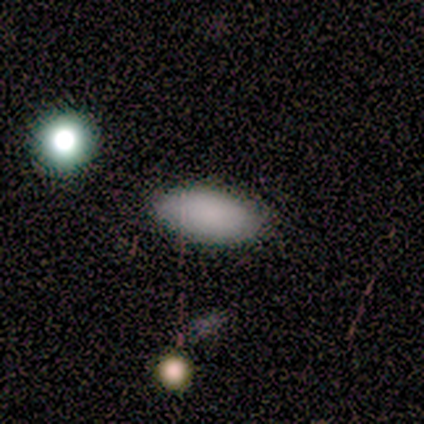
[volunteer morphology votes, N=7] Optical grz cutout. It shows a smooth galaxy with no disk features (100%) that is in between round and cigar-shaped (100%). Merging: none (100%).